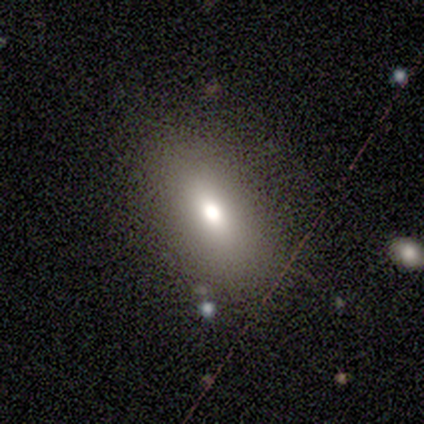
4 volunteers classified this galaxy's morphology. This appears to be a smooth galaxy with no disk features (75%) that is in between round and cigar-shaped (100%). Merging: none (100%).